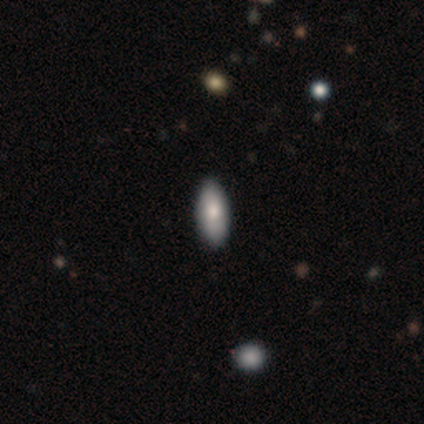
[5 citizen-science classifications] Volunteers were most divided on "how rounded": in between: 75%, cigar-shaped: 25%, round: 0%. More confident: merging — none (100%); smooth or featured — smooth (80%).